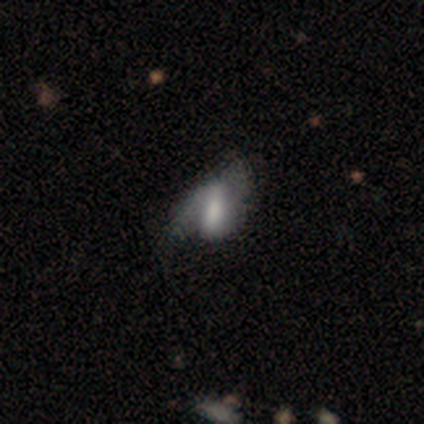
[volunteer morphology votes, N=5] Smooth or featured? 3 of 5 (60%) said featured or disk. Edge-on disk? 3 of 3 (100%) said no. Bar? 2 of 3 (67%) said no. Spiral arms? 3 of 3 (100%) said yes. Spiral winding? 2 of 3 (67%) said loose. Spiral arm count? 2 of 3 (67%) said 2. Bulge size? 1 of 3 (33%, tied with moderate and none) said large. Merging? 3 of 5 (60%) said minor disturbance.